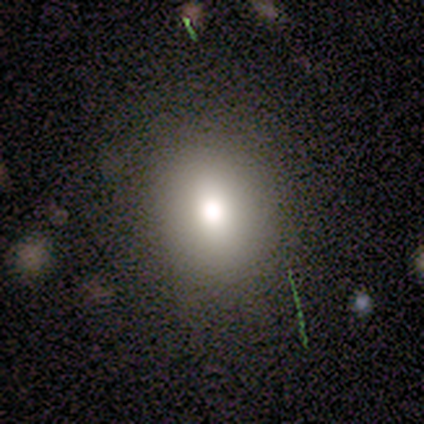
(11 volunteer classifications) Q: Smooth or featured?
A: smooth (73%); runner-up: featured or disk (27%)
Q: How rounded?
A: round (50%); tied with: in between (50%)
Q: Merging?
A: none (82%); runner-up: minor disturbance (9%)